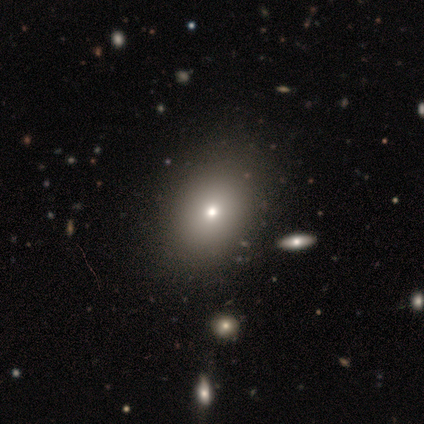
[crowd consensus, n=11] Morphology: type=smooth (82%); roundness=round (56%); merging=none (80%).